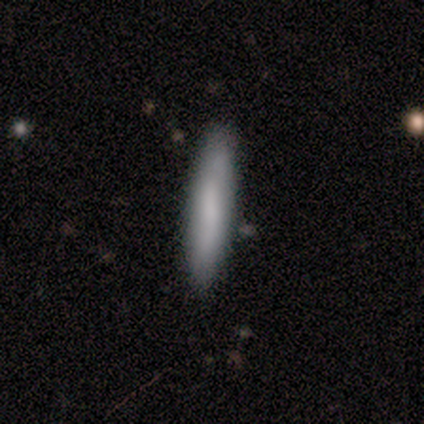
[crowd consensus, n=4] Smooth or featured: smooth — 75% (featured or disk — 25%)
How rounded: cigar-shaped — 100%
Merging: none — 100%